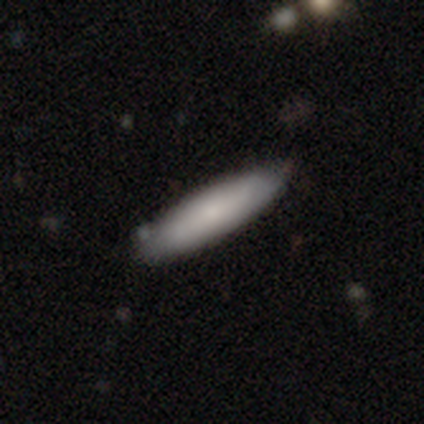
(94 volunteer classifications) Overall: smooth (80%). How rounded: cigar-shaped (81%). Merging: none (81%).